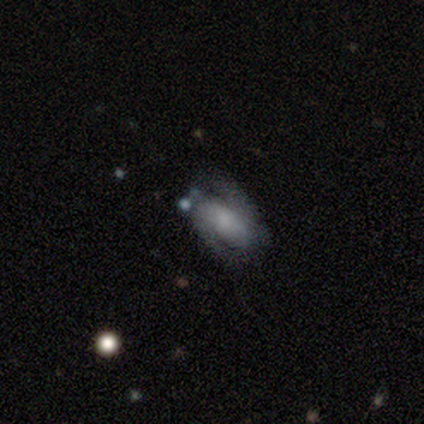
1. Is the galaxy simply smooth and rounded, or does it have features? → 80% featured or disk, 20% smooth, 0% star or artifact.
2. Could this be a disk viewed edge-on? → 100% no, 0% yes.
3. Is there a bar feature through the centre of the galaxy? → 100% no, 0% strong, 0% weak.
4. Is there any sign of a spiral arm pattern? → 100% yes, 0% no.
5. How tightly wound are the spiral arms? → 50% medium (tied), 50% loose (tied), 0% tight.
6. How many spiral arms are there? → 75% 2, 25% can't tell, 0% 1, 0% 3, 0% 4, 0% more than 4.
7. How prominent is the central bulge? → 75% none, 25% moderate, 0% dominant, 0% large, 0% small.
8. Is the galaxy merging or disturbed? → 100% none, 0% minor disturbance, 0% major disturbance, 0% merger.